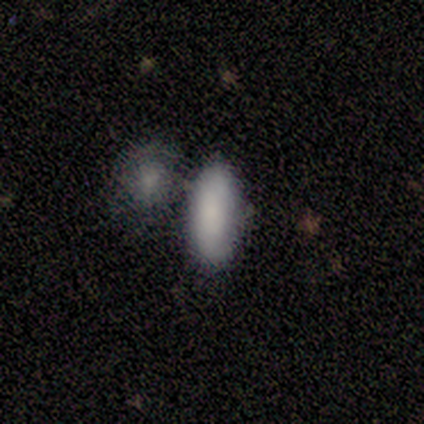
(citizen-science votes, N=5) A smooth galaxy with no disk features (80%) that is in between round and cigar-shaped (100%).

Vote fractions:
- Smooth or featured? smooth: 80% / featured or disk: 20% / star or artifact: 0%
- How rounded? in between: 100% / round: 0% / cigar-shaped: 0%
- Merging? none: 60% / merger: 40% / minor disturbance: 0% / major disturbance: 0%